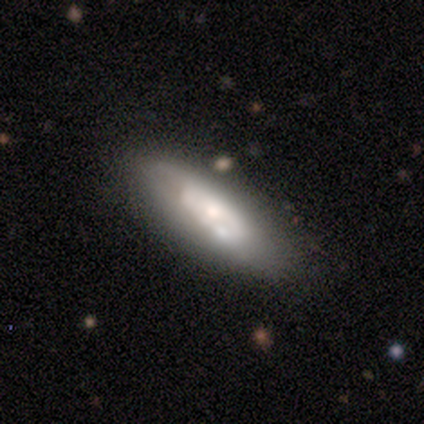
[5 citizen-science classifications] A smooth galaxy with no disk features (60%) that is in between round and cigar-shaped (100%).

Vote fractions:
- Smooth or featured? smooth: 60% / featured or disk: 40% / star or artifact: 0%
- How rounded? in between: 100% / round: 0% / cigar-shaped: 0%
- Merging? none: 80% / minor disturbance: 20% / major disturbance: 0% / merger: 0%